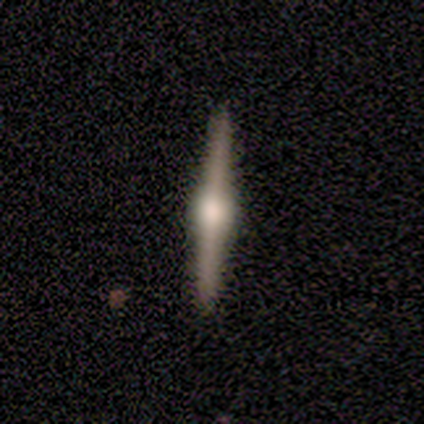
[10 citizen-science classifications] Smooth or featured? 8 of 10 (80%) said featured or disk. Edge-on disk? 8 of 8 (100%) said yes. Edge-on bulge? 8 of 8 (100%) said rounded. Merging? 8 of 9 (89%) said none.